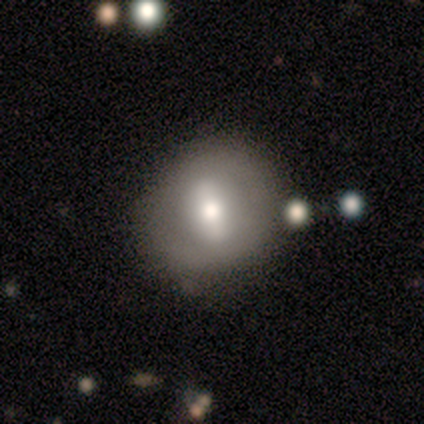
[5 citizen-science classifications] Smooth or featured? 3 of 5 (60%) said smooth. How rounded? 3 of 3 (100%) said round. Merging? 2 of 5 (40%) said minor disturbance.